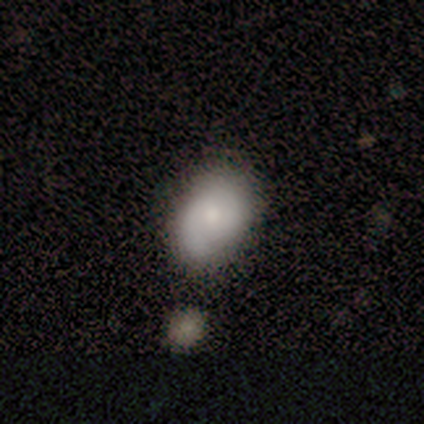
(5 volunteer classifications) Smooth or featured? smooth (80%)
How rounded? round (50%, tied with in between)
Merging? none (60%)